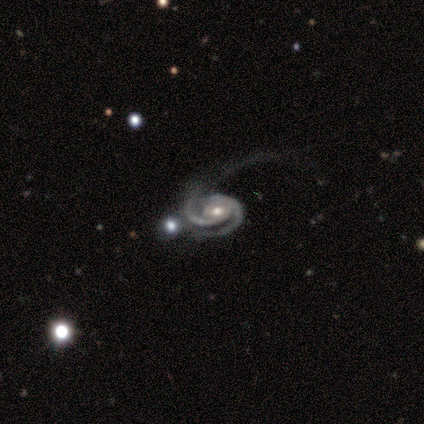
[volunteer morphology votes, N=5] type=featured or disk (100%); edge-on=no (100%); bar=no (60%); spiral arms=yes (100%); winding=tight (60%); arm count=2 (80%); bulge=moderate (60%); merging=none (60%).